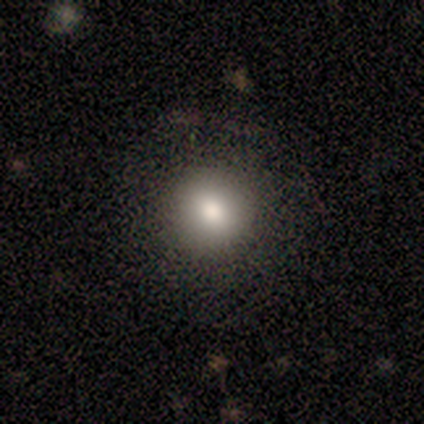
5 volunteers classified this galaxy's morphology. A smooth galaxy with no disk features (60%) that is round (100%). Merging: none (100%).